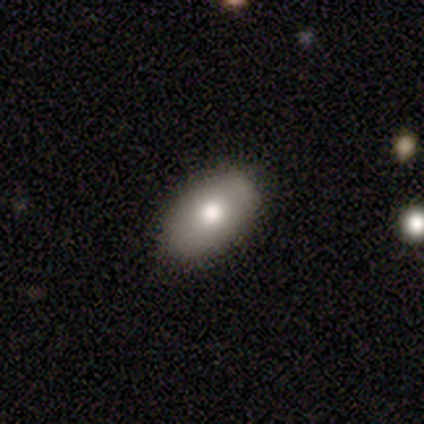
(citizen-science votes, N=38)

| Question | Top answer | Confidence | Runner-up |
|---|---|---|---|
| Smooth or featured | smooth | 82% | featured or disk (13%) |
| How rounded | in between | 87% | round (10%) |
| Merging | none | 75% | minor disturbance (17%) |